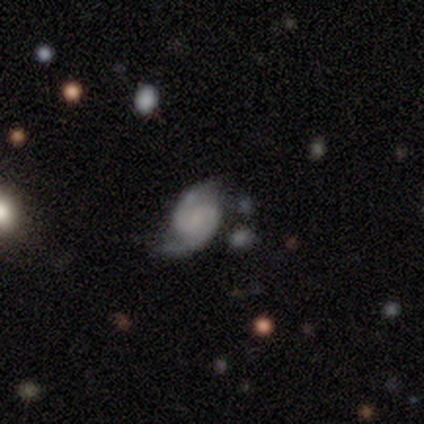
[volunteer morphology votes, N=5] A featured or disk galaxy (80%) with a weak bar (75%), 2 (100%) medium (75%) spiral arms (100%) and no central bulge (75%). Merging: none (80%).